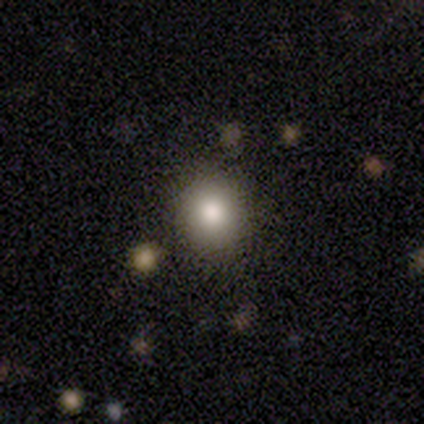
Q: Smooth or featured?
A: smooth (82%); runner-up: star or artifact (10%)
Q: How rounded?
A: round (81%); runner-up: in between (19%)
Q: Merging?
A: none (89%); runner-up: minor disturbance (9%)